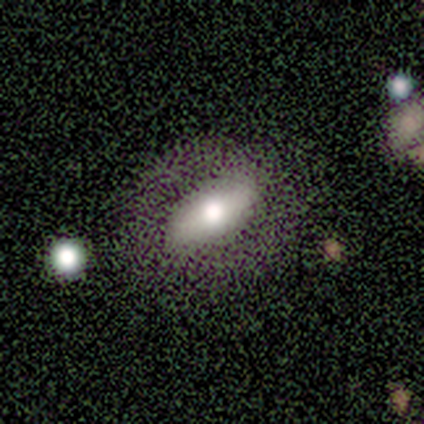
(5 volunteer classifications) Smooth or featured?
  - smooth: 80% *
  - featured or disk: 20%
  - star or artifact: 0%
How rounded?
  - in between: 75% *
  - round: 25%
  - cigar-shaped: 0%
Merging?
  - none: 80% *
  - minor disturbance: 20%
  - major disturbance: 0%
  - merger: 0%